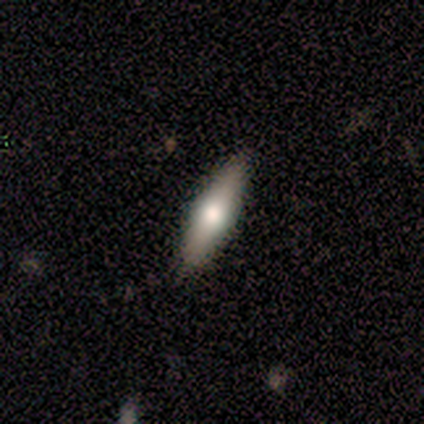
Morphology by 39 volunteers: This appears to be a featured or disk galaxy (54%) viewed edge-on (86%) with a rounded central bulge (94%). Merging: none (82%).